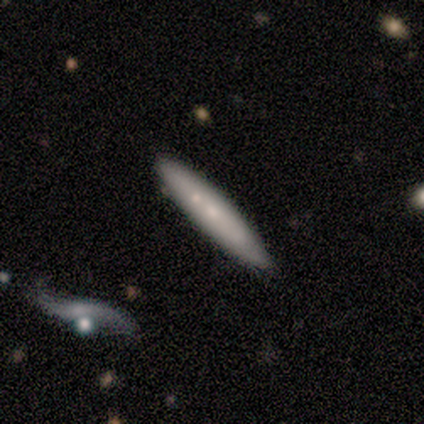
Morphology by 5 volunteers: Smooth or featured?
  - featured or disk: 60% *
  - smooth: 40%
  - star or artifact: 0%
Edge-on disk?
  - yes: 100% *
  - no: 0%
Edge-on bulge?
  - none: 67% *
  - rounded: 33%
  - boxy: 0%
Merging?
  - none: 80% *
  - merger: 20%
  - minor disturbance: 0%
  - major disturbance: 0%